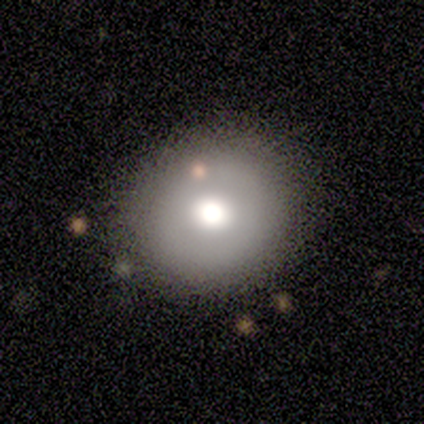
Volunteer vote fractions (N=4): smooth 50%, featured or disk 25%, star or artifact 25%. Down the decision tree: how rounded — round (100%); merging — none (67%).